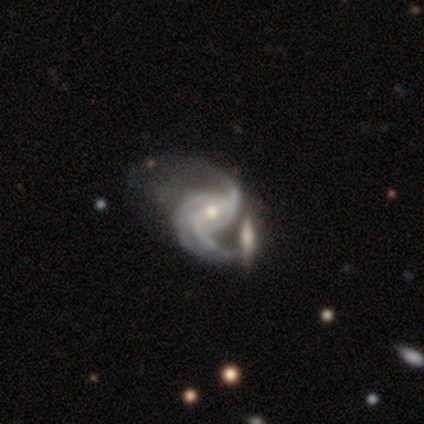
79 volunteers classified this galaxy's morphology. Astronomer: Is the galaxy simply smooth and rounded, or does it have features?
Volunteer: featured or disk — 97%.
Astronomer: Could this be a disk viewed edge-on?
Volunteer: no — 97%.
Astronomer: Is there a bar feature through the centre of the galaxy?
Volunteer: weak — 49% (runner-up: no, 33%).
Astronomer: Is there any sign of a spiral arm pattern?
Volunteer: yes — 99%.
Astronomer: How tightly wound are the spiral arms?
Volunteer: medium — 51% (runner-up: loose, 39%).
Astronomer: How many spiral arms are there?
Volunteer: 3 — 49% (runner-up: 2, 41%).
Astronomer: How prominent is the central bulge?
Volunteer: small — 57% (runner-up: moderate, 43%).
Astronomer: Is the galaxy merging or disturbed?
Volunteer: none — 22% (runner-up: major disturbance, 16%).